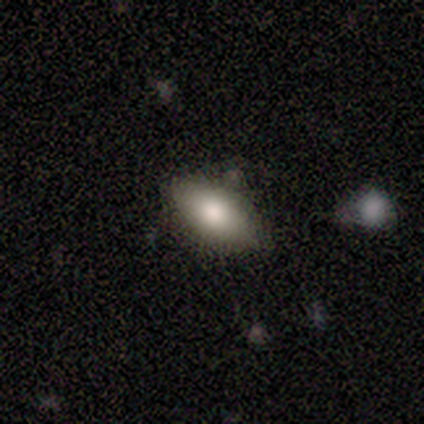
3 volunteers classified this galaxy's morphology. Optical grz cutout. It shows a smooth galaxy with no disk features (100%) that is in between round and cigar-shaped (100%). Merging: none (100%).